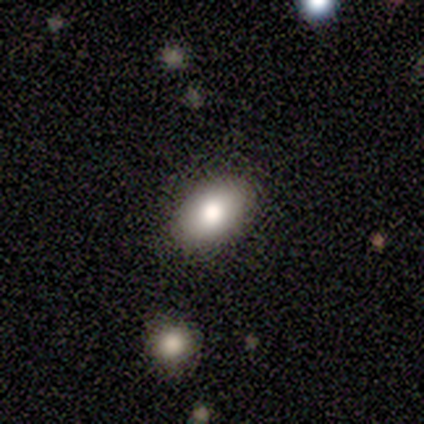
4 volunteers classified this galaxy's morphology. Q: Smooth or featured?
A: smooth (75%); runner-up: star or artifact (25%)
Q: How rounded?
A: in between (100%)
Q: Merging?
A: none (67%); runner-up: minor disturbance (33%)